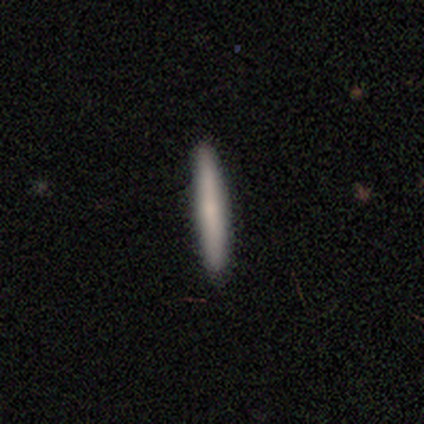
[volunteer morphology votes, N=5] Smooth or featured?
  - featured or disk: 60% *
  - smooth: 40%
  - star or artifact: 0%
Edge-on disk?
  - yes: 67% *
  - no: 33%
Edge-on bulge?
  - none: 100% *
  - boxy: 0%
  - rounded: 0%
Merging?
  - none: 100% *
  - minor disturbance: 0%
  - major disturbance: 0%
  - merger: 0%